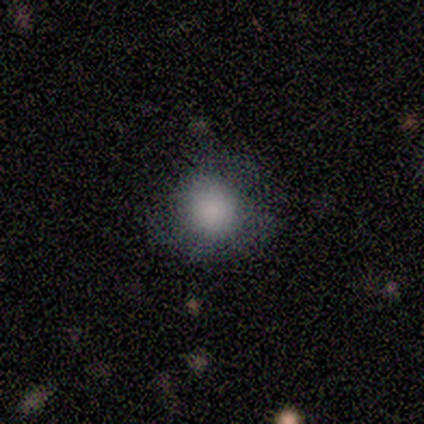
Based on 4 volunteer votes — smooth_or_featured: smooth (p=0.50) [tied with: featured or disk p=0.50]
how_rounded: round (p=1.00)
merging: minor disturbance (p=0.50) [alt: none p=0.25]